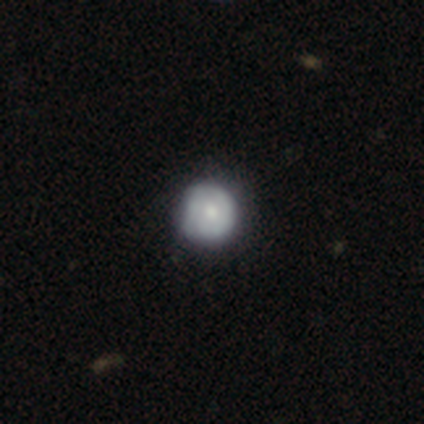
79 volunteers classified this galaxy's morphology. This appears to be a smooth galaxy with no disk features (59%) that is round (96%). Merging: none (40%).